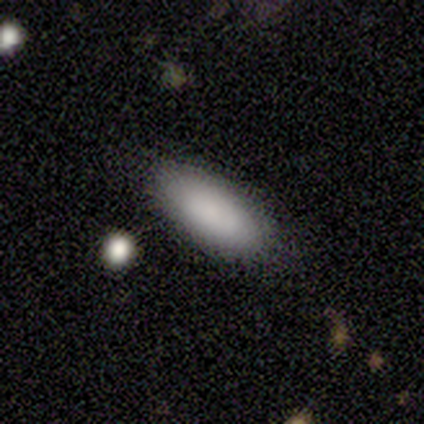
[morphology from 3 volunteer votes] Smooth or featured? smooth (100%)
How rounded? in between (67%)
Merging? none (67%)